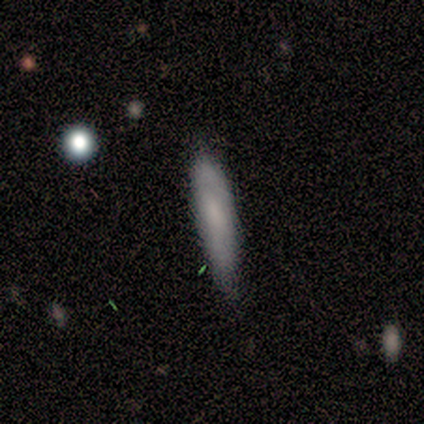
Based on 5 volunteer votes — Morphology: type=smooth (40%, tied with featured or disk); roundness=in between (100%); merging=minor disturbance (75%).